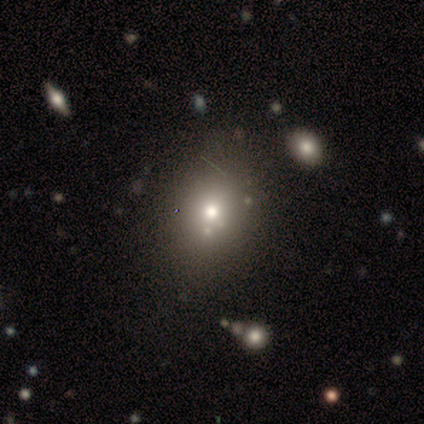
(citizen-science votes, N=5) Smooth or featured: smooth — 40% (tied with featured or disk — 40%)
How rounded: in between — 100%
Merging: none — 50% (tied with minor disturbance — 50%)